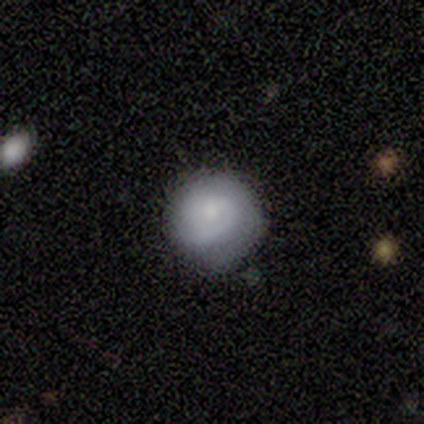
Smooth or featured: smooth — 50% (featured or disk — 25%)
How rounded: round — 100%
Merging: none — 67% (minor disturbance — 33%)